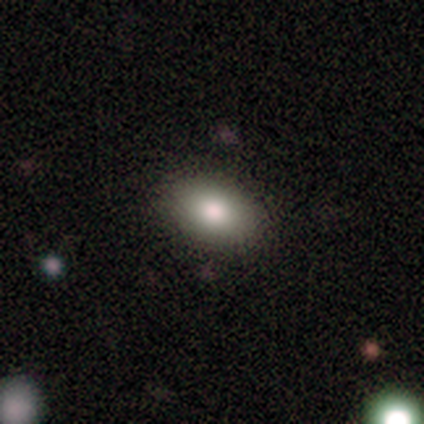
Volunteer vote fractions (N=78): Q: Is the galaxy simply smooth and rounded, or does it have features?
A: smooth — 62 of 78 (79%).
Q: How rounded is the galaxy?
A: in between — 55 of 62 (89%).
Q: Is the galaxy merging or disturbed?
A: none — 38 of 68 (56%).